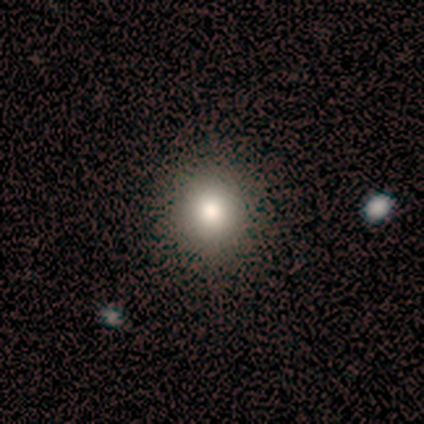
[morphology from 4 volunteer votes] This appears to be a smooth galaxy with no disk features (50%) that is round (100%). Merging: none (100%).